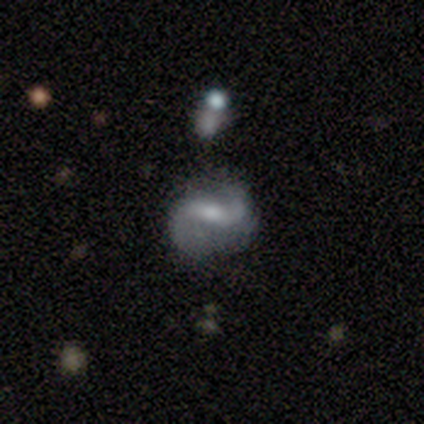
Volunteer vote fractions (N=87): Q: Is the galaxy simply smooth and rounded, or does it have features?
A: featured or disk — 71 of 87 (82%).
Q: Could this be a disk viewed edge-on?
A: no — 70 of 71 (99%).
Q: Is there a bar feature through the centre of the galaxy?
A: weak — 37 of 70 (53%).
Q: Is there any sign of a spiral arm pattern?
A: yes — 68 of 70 (97%).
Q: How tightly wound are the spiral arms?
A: loose — 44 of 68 (65%).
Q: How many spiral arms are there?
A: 2 — 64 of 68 (94%).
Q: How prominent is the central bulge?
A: moderate — 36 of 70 (51%).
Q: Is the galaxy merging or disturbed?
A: none — 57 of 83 (69%).